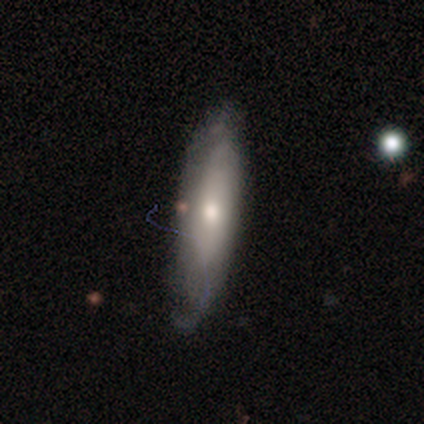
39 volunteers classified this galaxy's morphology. smooth_or_featured: smooth (p=0.54) [alt: featured or disk p=0.41]
how_rounded: cigar-shaped (p=0.67) [alt: in between p=0.33]
merging: none (p=0.62) [alt: minor disturbance p=0.32]